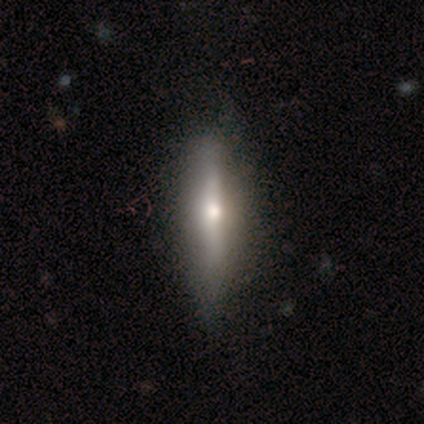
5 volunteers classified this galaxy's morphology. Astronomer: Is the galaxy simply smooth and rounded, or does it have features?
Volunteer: smooth — 40%, tied with featured or disk at 40%.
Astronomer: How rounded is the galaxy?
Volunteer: in between — 50%, tied with cigar-shaped at 50%.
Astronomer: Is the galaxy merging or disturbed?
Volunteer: none — 100%.